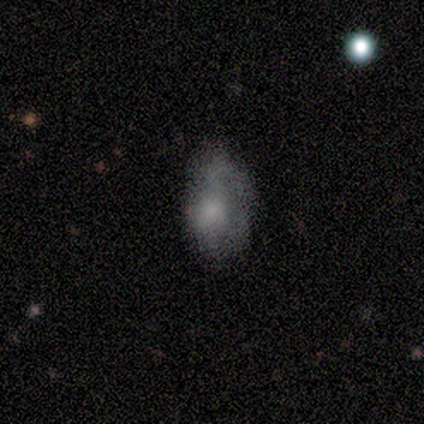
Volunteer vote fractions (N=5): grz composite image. It shows a smooth galaxy with no disk features (100%) that is in between round and cigar-shaped (100%). Merging: none (80%).